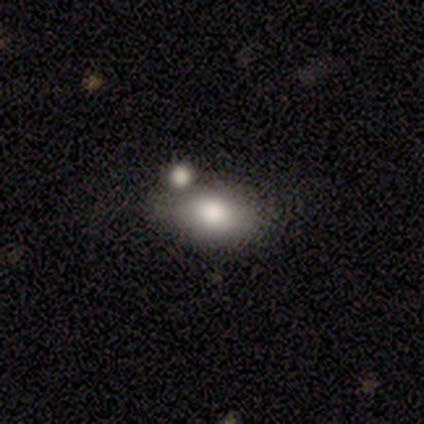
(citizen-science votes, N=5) Q: Smooth or featured?
A: smooth (60%); runner-up: featured or disk (40%)
Q: How rounded?
A: in between (100%)
Q: Merging?
A: none (60%); runner-up: minor disturbance (20%)